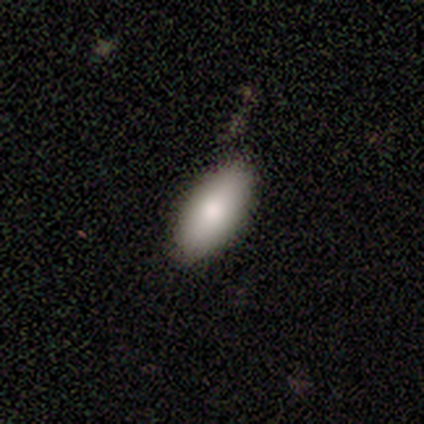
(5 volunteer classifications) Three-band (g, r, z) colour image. It shows a smooth galaxy with no disk features (40%, tied with featured or disk) that is in between round and cigar-shaped (100%). Merging: none (50%, tied with minor disturbance).